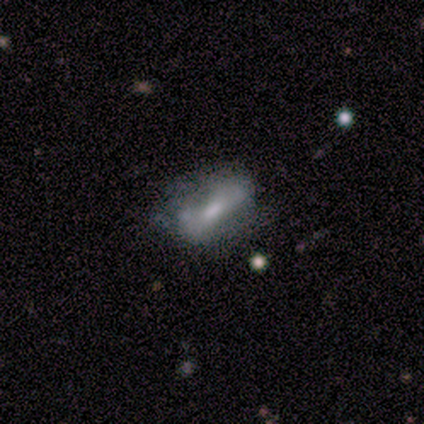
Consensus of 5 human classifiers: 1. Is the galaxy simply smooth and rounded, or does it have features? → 60% featured or disk, 40% smooth, 0% star or artifact.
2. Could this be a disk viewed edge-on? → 67% no, 33% yes.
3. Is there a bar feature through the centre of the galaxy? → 50% weak (tied), 50% no (tied), 0% strong.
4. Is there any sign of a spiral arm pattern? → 100% no, 0% yes.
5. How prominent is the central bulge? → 50% moderate (tied), 50% small (tied), 0% dominant, 0% large, 0% none.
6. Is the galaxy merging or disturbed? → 60% major disturbance, 20% none, 20% minor disturbance, 0% merger.